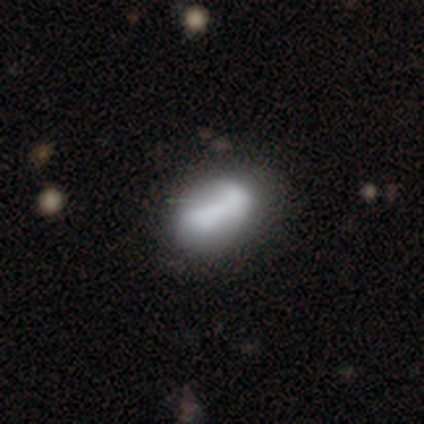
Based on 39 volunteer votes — This is likely a smooth galaxy (72%). How rounded: clearly in between (82%). Merging: marginally none (39%).